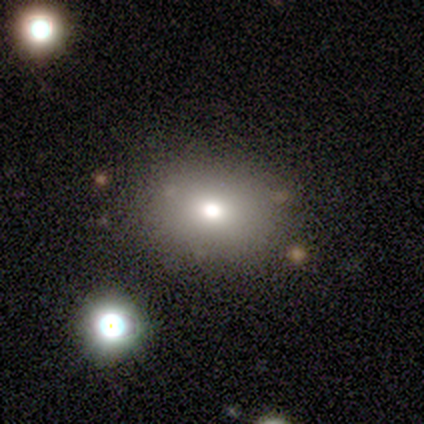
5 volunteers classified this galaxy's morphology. smooth 80%, star or artifact 20%, featured or disk 0%. Down the decision tree: how rounded — in between (100%); merging — none (75%).